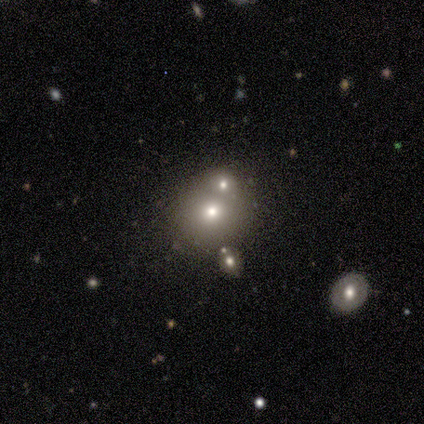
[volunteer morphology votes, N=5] Overall: smooth (40%, tied with star or artifact). How rounded: round (100%). Merging: none (67%; major disturbance 33%).